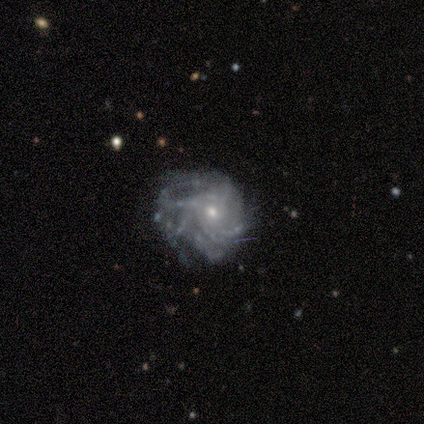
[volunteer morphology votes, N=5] This appears to be a featured or disk galaxy (60%) with no bar (100%), 4 (33%, tied with more than 4 and can't tell) tight (67%) spiral arms (100%) and a small central bulge (67%). Merging: minor disturbance (75%).